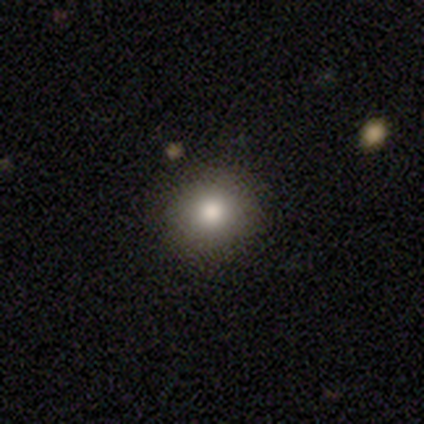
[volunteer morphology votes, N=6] A smooth galaxy with no disk features (50%, tied with star or artifact) that is round (100%).

Vote fractions:
- Smooth or featured? smooth: 50% (tied) / star or artifact: 50% (tied) / featured or disk: 0%
- How rounded? round: 100% / in between: 0% / cigar-shaped: 0%
- Merging? none: 100% / minor disturbance: 0% / major disturbance: 0% / merger: 0%